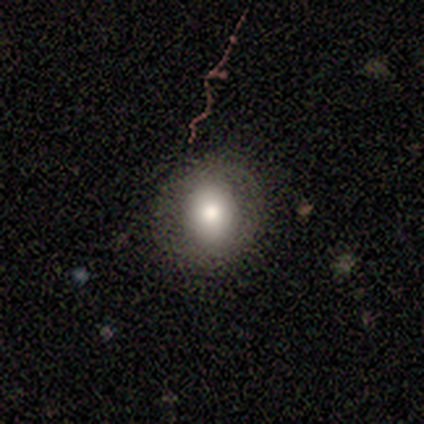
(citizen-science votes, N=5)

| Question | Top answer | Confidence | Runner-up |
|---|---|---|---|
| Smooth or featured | featured or disk | 60% | smooth (40%) |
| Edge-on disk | no | 100% | — |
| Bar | no | 67% | weak (33%) |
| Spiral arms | yes | 67% | no (33%) |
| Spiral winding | tight | 50% | tied: medium (50%) |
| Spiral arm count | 2 | 50% | tied: can't tell (50%) |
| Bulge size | large | 33% | tied: moderate (33%), small (33%) |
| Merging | none | 80% | minor disturbance (20%) |